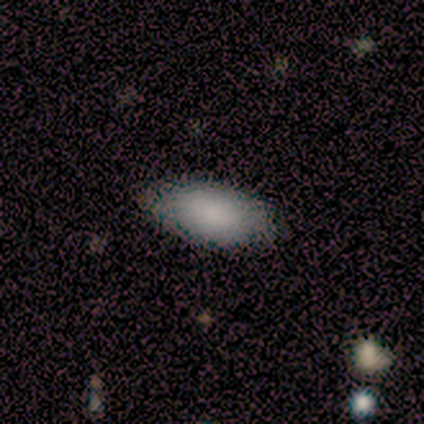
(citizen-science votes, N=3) Morphology: type=smooth (67%); roundness=in between (100%); merging=none (50%, tied with minor disturbance).